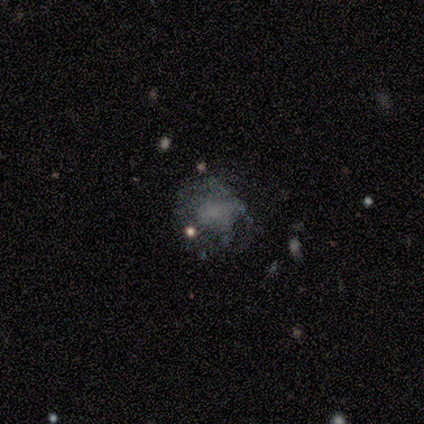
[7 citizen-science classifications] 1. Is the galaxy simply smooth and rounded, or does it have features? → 71% featured or disk, 29% smooth, 0% star or artifact.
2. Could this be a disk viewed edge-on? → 80% no, 20% yes.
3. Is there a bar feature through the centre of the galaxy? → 75% no, 25% strong, 0% weak.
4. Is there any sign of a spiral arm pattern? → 100% no, 0% yes.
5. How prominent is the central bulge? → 50% small, 25% moderate, 25% none, 0% dominant, 0% large.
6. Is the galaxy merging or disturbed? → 43% none, 29% minor disturbance, 14% major disturbance, 14% merger.